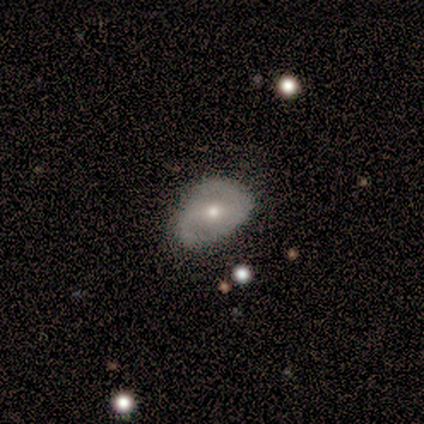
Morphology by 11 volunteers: type=featured or disk (73%); edge-on=no (100%); bar=weak (38%, tied with no); spiral arms=yes (62%); winding=medium (60%); arm count=2 (80%); bulge=small (62%); merging=none (55%).